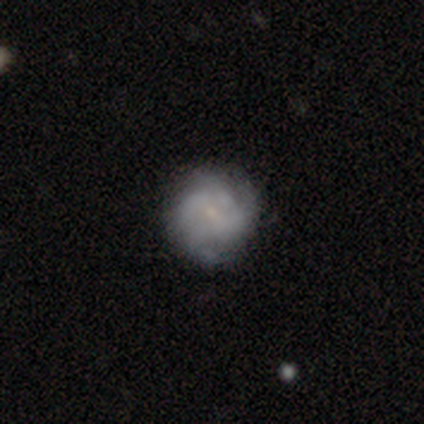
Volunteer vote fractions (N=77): A featured or disk galaxy (66%) with no bar (67%), tight (43%, tied with medium) spiral arms (73%) and a small central bulge (71%). Merging: none (43%).